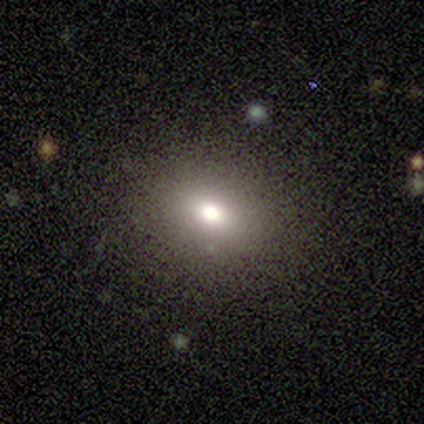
Smooth or featured: smooth — 62% (star or artifact — 25%)
How rounded: round — 60% (in between — 40%)
Merging: none — 83% (minor disturbance — 17%)